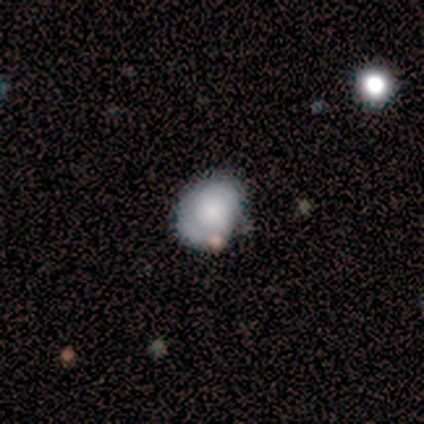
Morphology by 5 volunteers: A smooth galaxy with no disk features (80%) that is round (100%).

Vote fractions:
- Smooth or featured? smooth: 80% / star or artifact: 20% / featured or disk: 0%
- How rounded? round: 100% / in between: 0% / cigar-shaped: 0%
- Merging? none: 50% (tied) / minor disturbance: 50% (tied) / major disturbance: 0% / merger: 0%